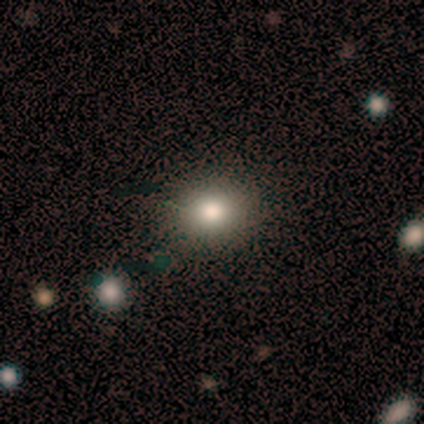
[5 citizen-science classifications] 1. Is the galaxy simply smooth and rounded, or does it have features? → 60% smooth, 40% star or artifact, 0% featured or disk.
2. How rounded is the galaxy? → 100% round, 0% in between, 0% cigar-shaped.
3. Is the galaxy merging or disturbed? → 100% none, 0% minor disturbance, 0% major disturbance, 0% merger.